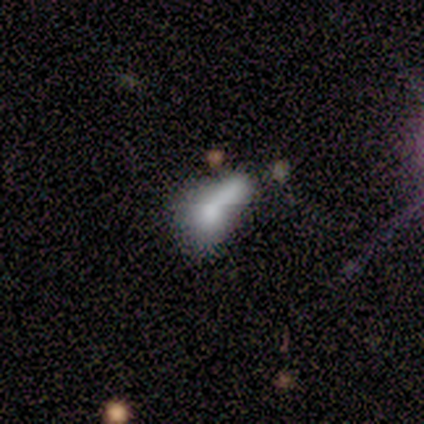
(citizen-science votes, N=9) A smooth galaxy with no disk features (44%) that is cigar-shaped (50%).

Vote fractions:
- Smooth or featured? smooth: 44% / featured or disk: 33% / star or artifact: 22%
- How rounded? cigar-shaped: 50% / round: 25% / in between: 25%
- Merging? merger: 43% / none: 29% / major disturbance: 29% / minor disturbance: 0%